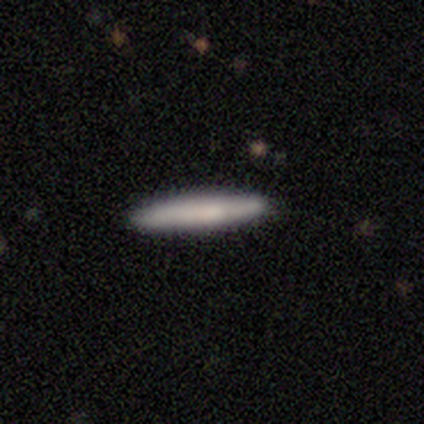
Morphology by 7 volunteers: Overall: smooth (86%). How rounded: cigar-shaped (100%). Merging: none (100%).